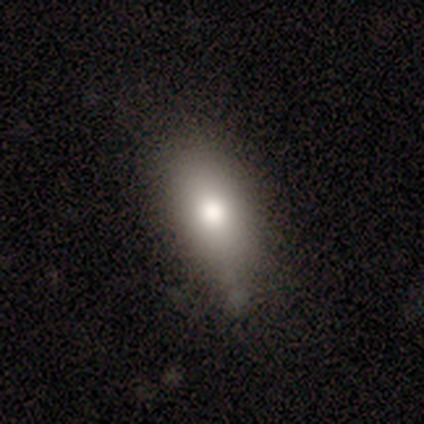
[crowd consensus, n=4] Q: Smooth or featured?
A: smooth (75%); runner-up: featured or disk (25%)
Q: How rounded?
A: round (33%); tied with: in between (33%); cigar-shaped (33%)
Q: Merging?
A: none (100%)